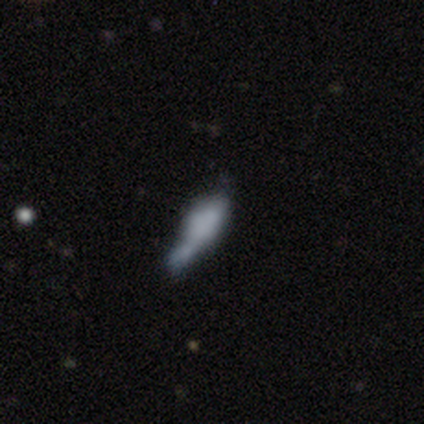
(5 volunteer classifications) Smooth or featured: smooth — 60% (featured or disk — 20%)
How rounded: in between — 100%
Merging: minor disturbance — 75% (none — 25%)